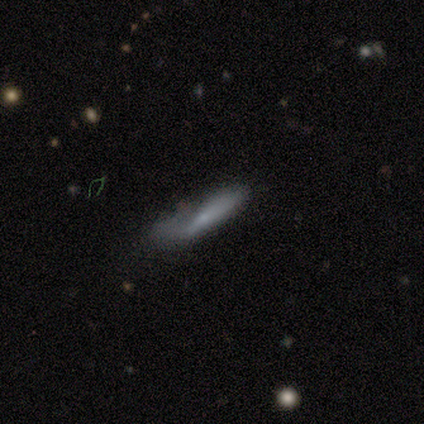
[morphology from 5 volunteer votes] smooth_or_featured: smooth (p=0.80) [alt: star or artifact p=0.20]
how_rounded: cigar-shaped (p=0.75) [alt: in between p=0.25]
merging: minor disturbance (p=0.50) [alt: none p=0.25]